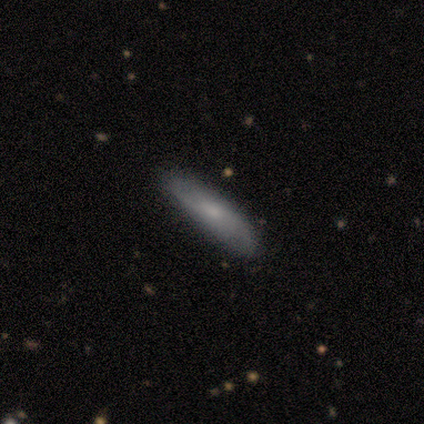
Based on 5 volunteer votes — This is likely a smooth galaxy (60%). How rounded: likely cigar-shaped (67%). Merging: clearly none (80%).